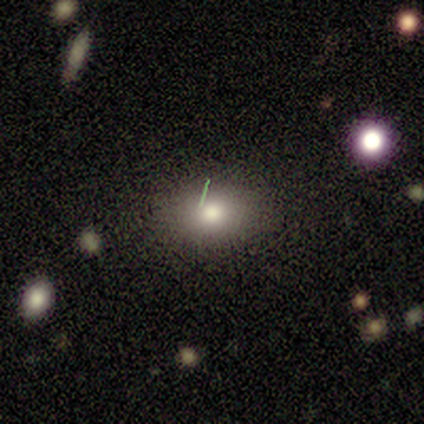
Morphology: type=smooth (40%, tied with featured or disk); roundness=round (50%, tied with in between); merging=none (50%, tied with minor disturbance).